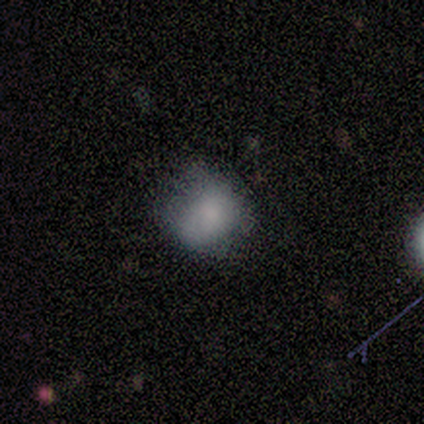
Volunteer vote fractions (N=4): This appears to be a smooth galaxy with no disk features (75%) that is round (67%). Merging: none (50%).